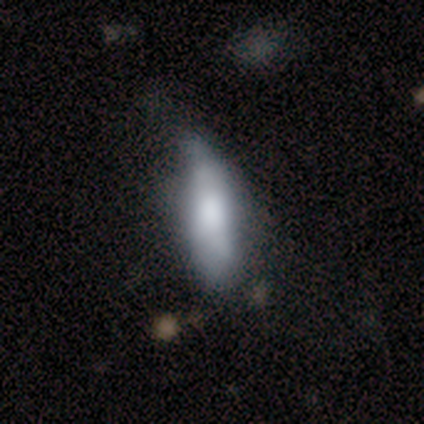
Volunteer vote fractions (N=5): smooth-or-featured: smooth: 100% | featured or disk: 0% | star or artifact: 0%
  how-rounded: in between: 60% | cigar-shaped: 40% | round: 0%
  merging: none: 40% (tied) | minor disturbance: 40% (tied) | major disturbance: 20% | merger: 0%